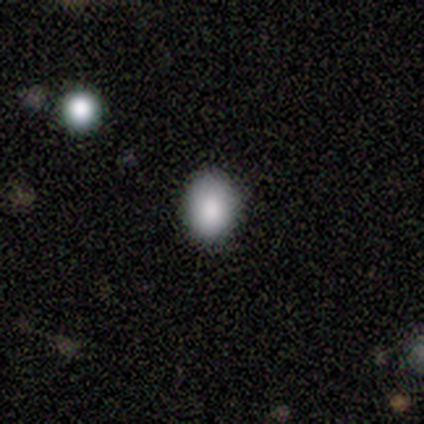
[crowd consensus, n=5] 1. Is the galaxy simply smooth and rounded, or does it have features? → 80% smooth, 20% star or artifact, 0% featured or disk.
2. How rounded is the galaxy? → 75% round, 25% in between, 0% cigar-shaped.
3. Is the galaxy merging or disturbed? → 100% none, 0% minor disturbance, 0% major disturbance, 0% merger.